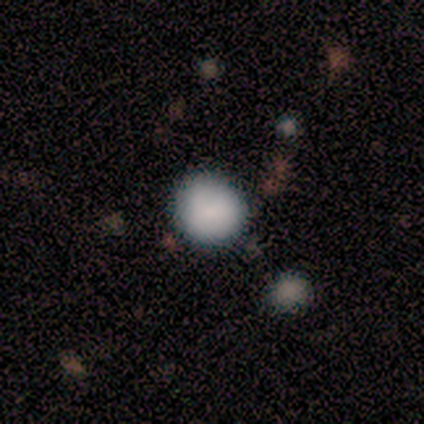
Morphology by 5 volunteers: Smooth or featured?
  - smooth: 100% *
  - featured or disk: 0%
  - star or artifact: 0%
How rounded?
  - round: 80% *
  - in between: 20%
  - cigar-shaped: 0%
Merging?
  - none: 100% *
  - minor disturbance: 0%
  - major disturbance: 0%
  - merger: 0%